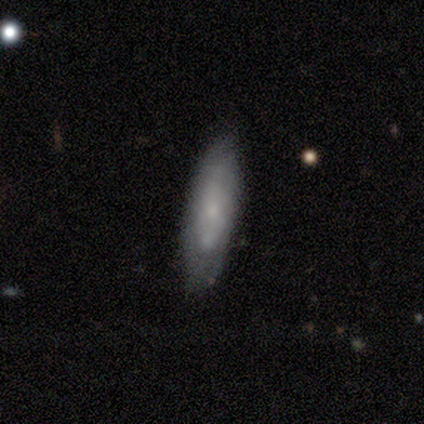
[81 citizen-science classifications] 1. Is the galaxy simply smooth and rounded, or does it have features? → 59% smooth, 33% featured or disk, 7% star or artifact.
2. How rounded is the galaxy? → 56% in between, 42% cigar-shaped, 2% round.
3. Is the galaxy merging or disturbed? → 71% none, 21% minor disturbance, 5% major disturbance, 3% merger.